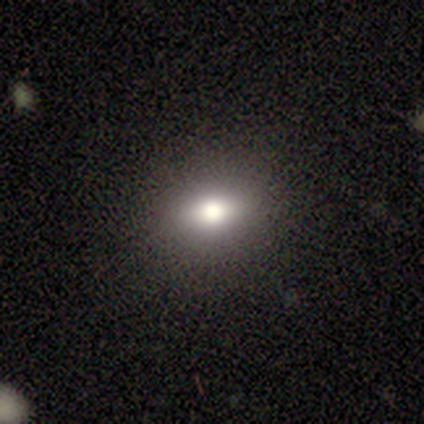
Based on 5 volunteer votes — Q: Smooth or featured?
A: smooth (40%); tied with: star or artifact (40%)
Q: How rounded?
A: in between (100%)
Q: Merging?
A: none (100%)